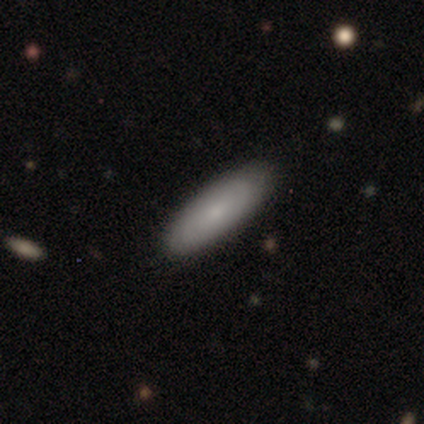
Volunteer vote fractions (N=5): Q: Smooth or featured?
A: smooth (60%); runner-up: featured or disk (40%)
Q: How rounded?
A: cigar-shaped (67%); runner-up: in between (33%)
Q: Merging?
A: none (100%)